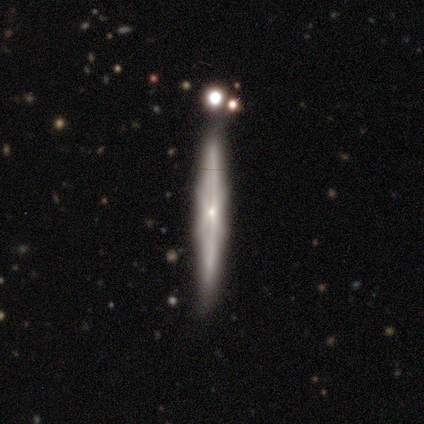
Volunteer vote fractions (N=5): This appears to be a featured or disk galaxy (100%) viewed edge-on (100%) with no central bulge (80%). Merging: none (80%).